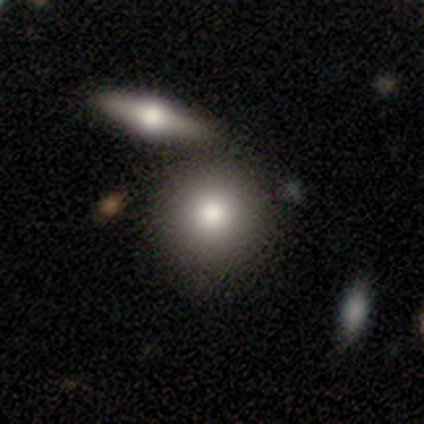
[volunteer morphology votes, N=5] smooth-or-featured: smooth: 60% | featured or disk: 40% | star or artifact: 0%
  how-rounded: round: 100% | in between: 0% | cigar-shaped: 0%
  merging: none: 80% | merger: 20% | minor disturbance: 0% | major disturbance: 0%